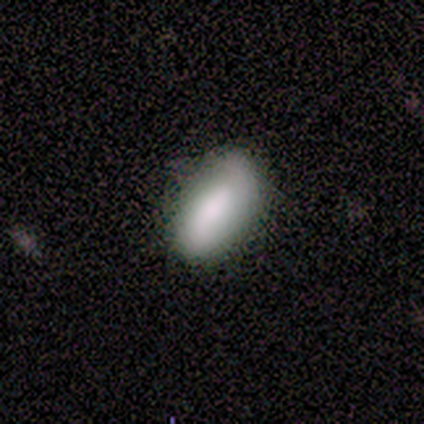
Smooth or featured: smooth — 60% (featured or disk — 40%)
How rounded: in between — 100%
Merging: none — 60% (minor disturbance — 40%)